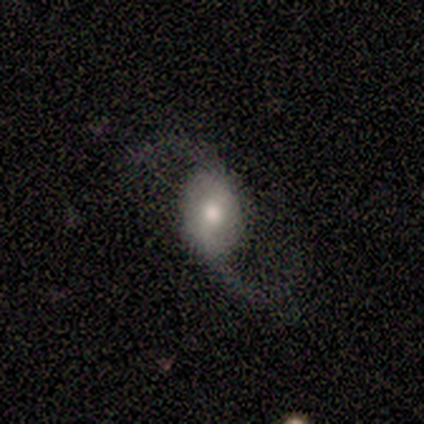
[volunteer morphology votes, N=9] Smooth or featured: featured or disk — 89% (star or artifact — 11%)
Edge-on disk: no — 100%
Bar: weak — 50% (no — 38%)
Spiral arms: yes — 75% (no — 25%)
Spiral winding: loose — 100%
Spiral arm count: 2 — 100%
Bulge size: moderate — 62% (small — 38%)
Merging: none — 88% (minor disturbance — 12%)